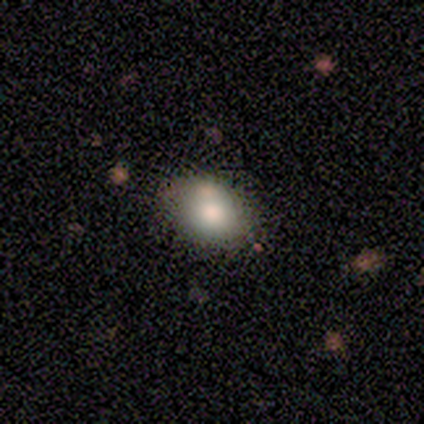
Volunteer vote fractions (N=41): smooth 76%, featured or disk 17%, star or artifact 7%. Down the decision tree: how rounded — in between (65%); merging — none (58%).